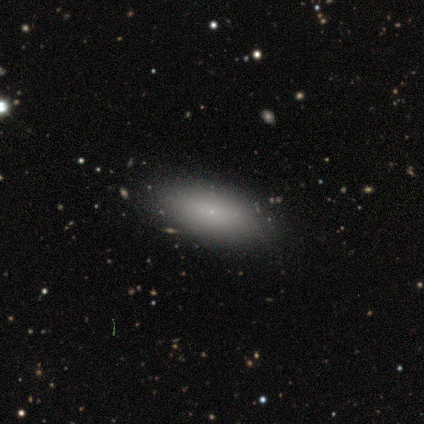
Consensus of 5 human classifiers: Morphology: type=featured or disk (60%); edge-on=no (100%); bar=no (100%); spiral arms=no (100%); bulge=small (100%); merging=none (100%).